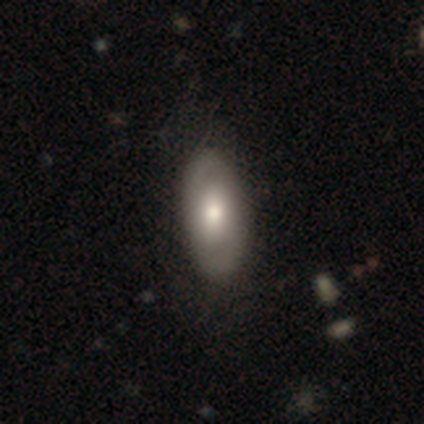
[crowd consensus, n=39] This appears to be a smooth galaxy with no disk features (67%) that is in between round and cigar-shaped (92%). Merging: none (76%).